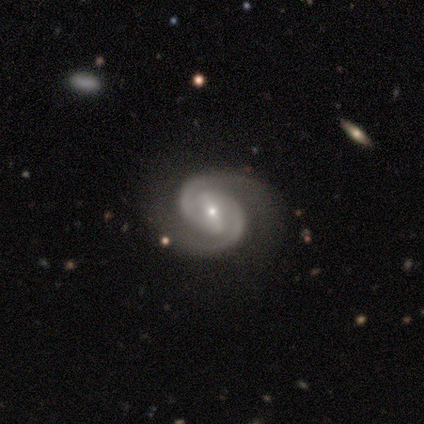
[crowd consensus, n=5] Volunteers were most divided on "bulge size": small: 60%, moderate: 40%, dominant: 0%, large: 0%, none: 0%. More confident: smooth or featured — featured or disk (100%); edge-on disk — no (100%); spiral arms — yes (100%); spiral winding — tight (100%); spiral arm count — 2 (100%); merging — none (100%); bar — strong (60%).